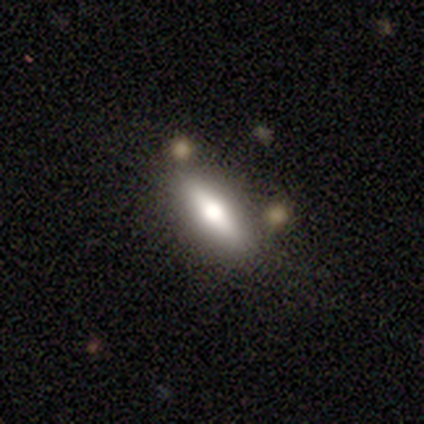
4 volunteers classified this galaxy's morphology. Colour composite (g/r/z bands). It shows a smooth galaxy with no disk features (75%) that is in between round and cigar-shaped (67%). Merging: none (75%).